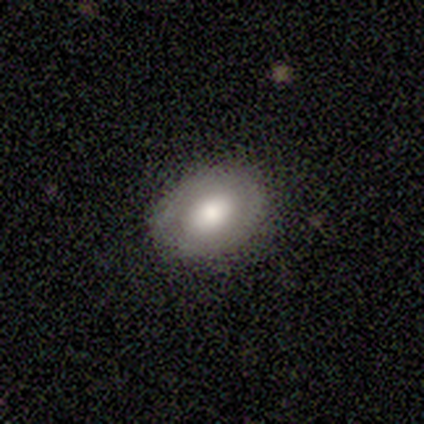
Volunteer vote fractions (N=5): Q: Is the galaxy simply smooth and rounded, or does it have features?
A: smooth — 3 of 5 (60%).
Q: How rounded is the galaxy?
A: in between — 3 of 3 (100%).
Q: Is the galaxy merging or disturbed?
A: none — 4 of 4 (100%).